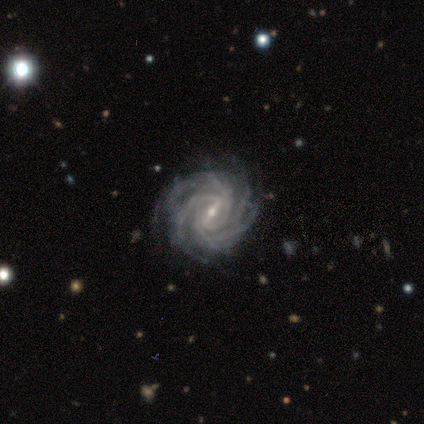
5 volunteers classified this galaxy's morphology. featured or disk 100%, smooth 0%, star or artifact 0%. Down the decision tree: edge-on disk — no (100%); bar — strong (60%); spiral arms — yes (100%); spiral arm count — 3 (60%); spiral winding — tight (80%); bulge size — small (60%); merging — none (80%).